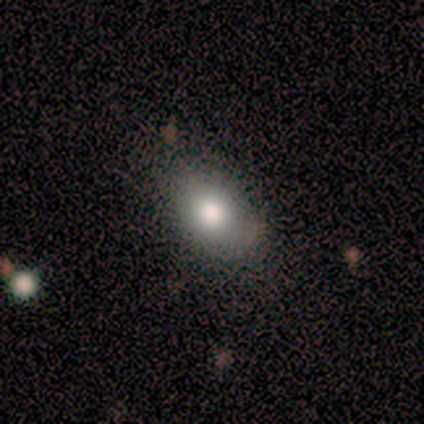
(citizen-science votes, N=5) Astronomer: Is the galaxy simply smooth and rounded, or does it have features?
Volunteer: smooth — 80%.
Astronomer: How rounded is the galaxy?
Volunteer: in between — 100%.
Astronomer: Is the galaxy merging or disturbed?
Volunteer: none — 80%.